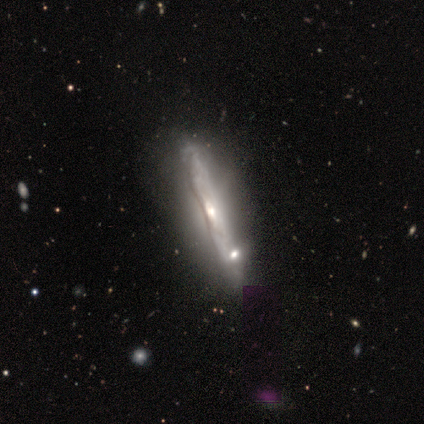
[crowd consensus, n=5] featured or disk 100%, smooth 0%, star or artifact 0%. Down the decision tree: edge-on disk — yes (80%); edge-on bulge — rounded (75%); merging — none (60%).